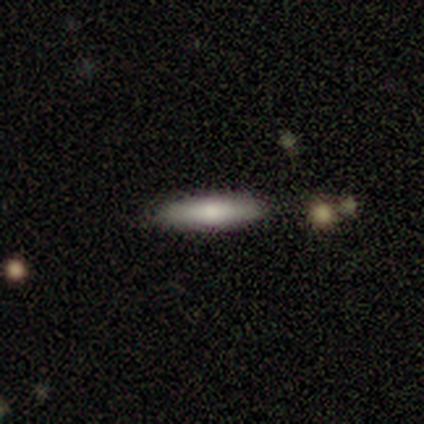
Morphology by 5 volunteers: Smooth or featured? smooth (60%)
How rounded? cigar-shaped (67%)
Merging? none (100%)